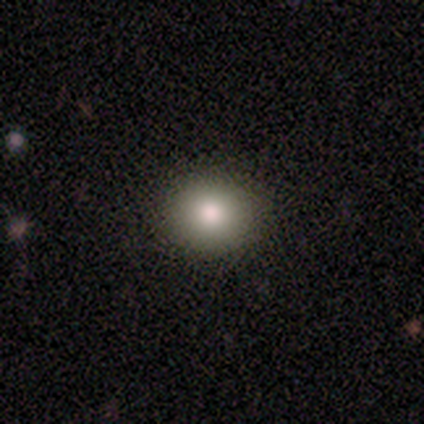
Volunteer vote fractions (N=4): Volunteers were most divided on "smooth or featured": smooth: 75%, star or artifact: 25%, featured or disk: 0%. More confident: how rounded — round (100%); merging — none (100%).